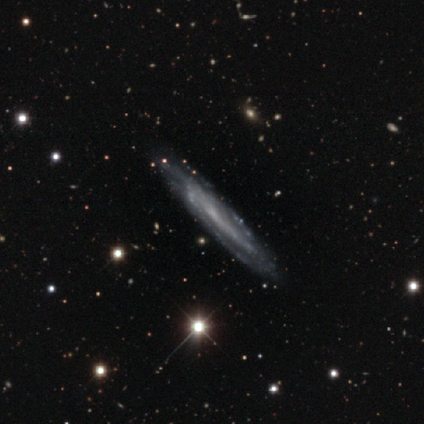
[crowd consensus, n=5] featured or disk 80%, smooth 20%, star or artifact 0%. Down the decision tree: edge-on disk — yes (100%); edge-on bulge — none (100%); merging — none (80%).